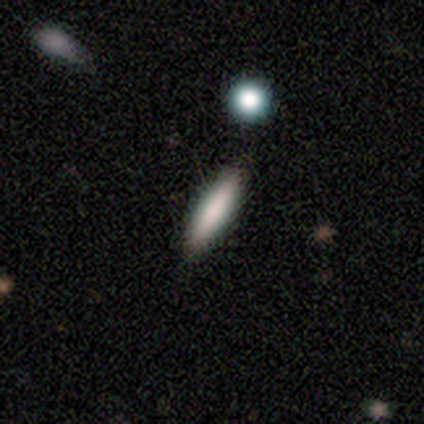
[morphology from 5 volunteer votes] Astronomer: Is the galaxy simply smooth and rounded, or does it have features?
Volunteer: smooth — 80%.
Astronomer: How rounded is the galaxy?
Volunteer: in between — 50%, tied with cigar-shaped at 50%.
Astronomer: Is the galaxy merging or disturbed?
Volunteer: none — 100%.